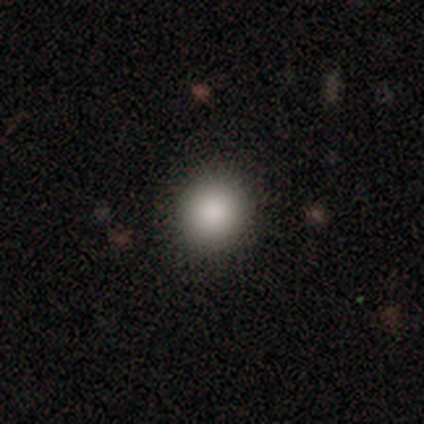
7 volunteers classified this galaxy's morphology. This appears to be a smooth galaxy with no disk features (86%) that is round (100%). Merging: none (100%).